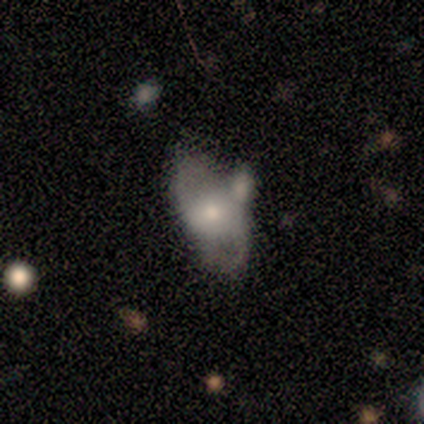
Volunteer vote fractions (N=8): Smooth or featured? 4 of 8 (50%) said featured or disk. Edge-on disk? 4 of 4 (100%) said no. Bar? 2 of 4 (50%) said no. Spiral arms? 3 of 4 (75%) said no. Bulge size? 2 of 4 (50%) said small. Merging? 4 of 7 (57%) said none.